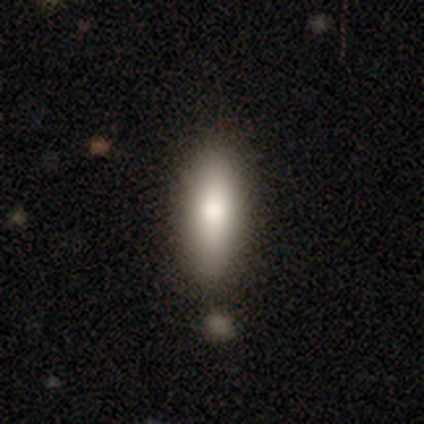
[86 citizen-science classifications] smooth_or_featured: smooth (p=0.80) [alt: featured or disk p=0.10]
how_rounded: cigar-shaped (p=0.54) [alt: in between p=0.43]
merging: none (p=0.74) [alt: merger p=0.12]